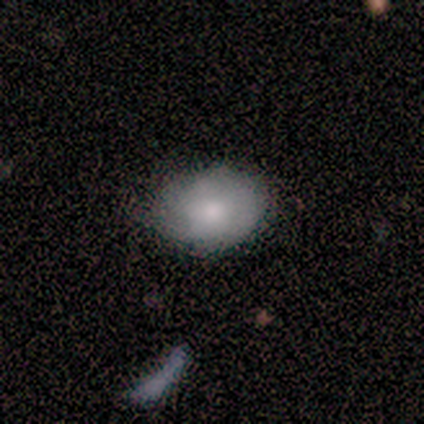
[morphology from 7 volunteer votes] Volunteers were most divided on "merging": none: 71%, minor disturbance: 29%, major disturbance: 0%, merger: 0%. More confident: smooth or featured — smooth (100%); how rounded — in between (100%).